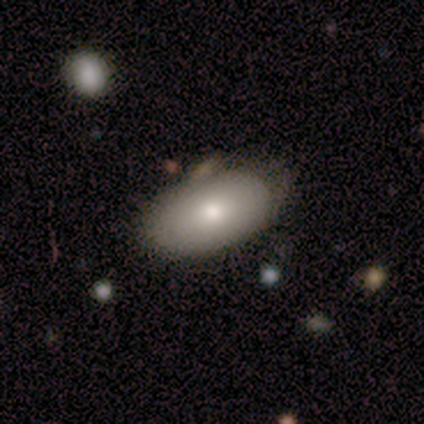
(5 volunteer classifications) Volunteers were most divided on "merging": none: 60%, minor disturbance: 40%, major disturbance: 0%, merger: 0%. More confident: how rounded — in between (100%); smooth or featured — smooth (80%).